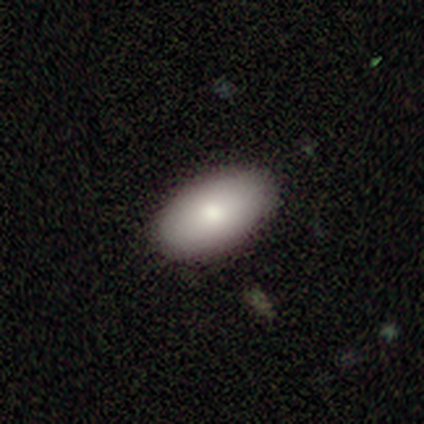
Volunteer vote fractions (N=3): This is likely a smooth galaxy (67%). How rounded: clearly in between (100%). Merging: clearly none (100%).